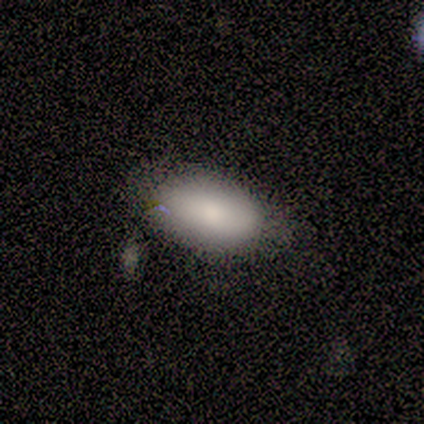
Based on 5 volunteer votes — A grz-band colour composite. It shows a smooth galaxy with no disk features (100%) that is in between round and cigar-shaped (100%). Merging: none (80%).